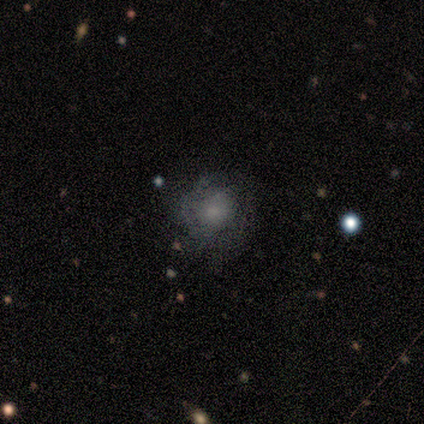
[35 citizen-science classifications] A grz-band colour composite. It shows a smooth galaxy with no disk features (46%) that is round (81%). Merging: none (57%).